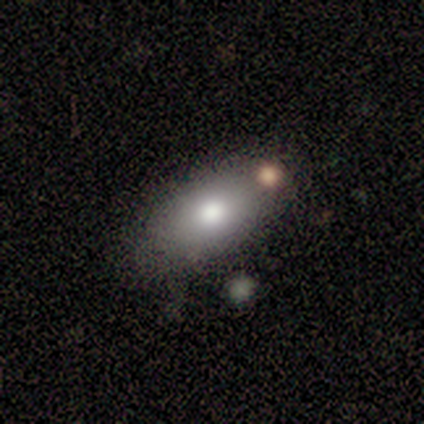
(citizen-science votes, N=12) Overall: smooth (92%). How rounded: in between (91%). Merging: none (58%).